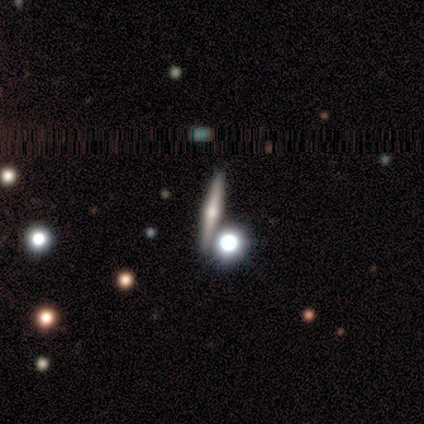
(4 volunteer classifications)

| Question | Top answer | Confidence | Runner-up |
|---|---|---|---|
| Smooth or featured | featured or disk | 75% | star or artifact (25%) |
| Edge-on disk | yes | 100% | — |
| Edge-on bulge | rounded | 100% | — |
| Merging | none | 67% | minor disturbance (33%) |